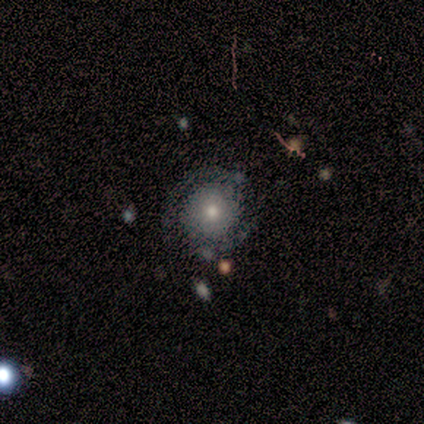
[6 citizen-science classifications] A smooth galaxy with no disk features (67%) that is round (100%). Merging: none (50%).